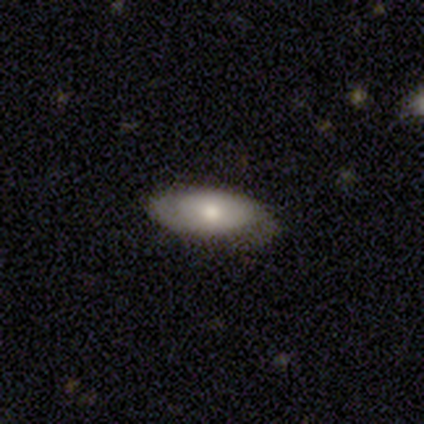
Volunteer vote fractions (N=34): smooth-or-featured: smooth: 79% | featured or disk: 18% | star or artifact: 3%
  how-rounded: in between: 89% | cigar-shaped: 11% | round: 0%
  merging: none: 67% | minor disturbance: 27% | major disturbance: 6% | merger: 0%